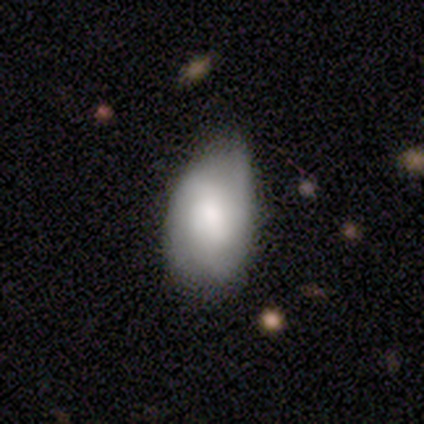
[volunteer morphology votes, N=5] Smooth or featured? smooth (80%)
How rounded? in between (75%)
Merging? none (100%)